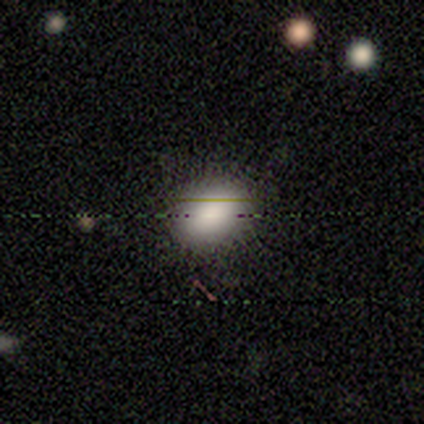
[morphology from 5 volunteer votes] This is clearly a smooth galaxy (100%). How rounded: likely in between (60%). Merging: clearly none (80%).